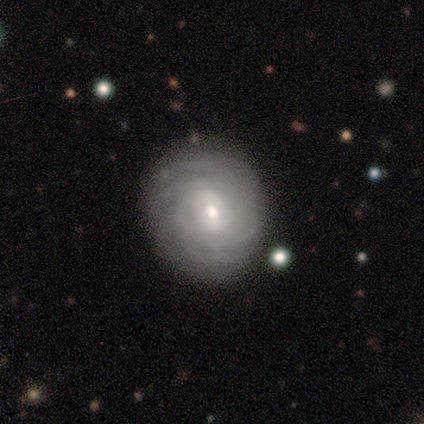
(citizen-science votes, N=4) Smooth or featured?
  - featured or disk: 100% *
  - smooth: 0%
  - star or artifact: 0%
Edge-on disk?
  - no: 100% *
  - yes: 0%
Bar?
  - no: 75% *
  - weak: 25%
  - strong: 0%
Spiral arms?
  - yes: 100% *
  - no: 0%
Spiral winding?
  - tight: 50% * (tied)
  - medium: 50% * (tied)
  - loose: 0%
Spiral arm count?
  - more than 4: 50% * (tied)
  - can't tell: 50% * (tied)
  - 1: 0%
  - 2: 0%
  - 3: 0%
  - 4: 0%
Bulge size?
  - small: 75% *
  - moderate: 25%
  - dominant: 0%
  - large: 0%
  - none: 0%
Merging?
  - none: 50% *
  - minor disturbance: 25%
  - major disturbance: 25%
  - merger: 0%